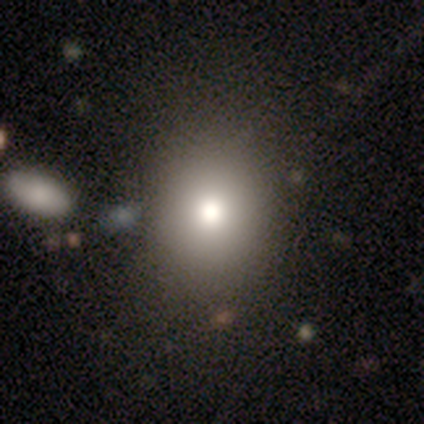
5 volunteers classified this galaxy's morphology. Overall: smooth (80%). How rounded: round (50%, tied with in between). Merging: none (100%).